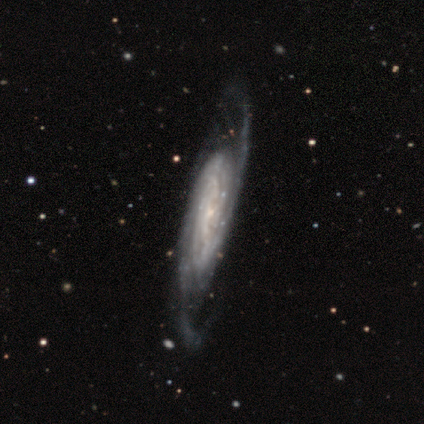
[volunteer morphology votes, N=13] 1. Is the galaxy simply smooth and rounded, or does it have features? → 92% featured or disk, 8% smooth, 0% star or artifact.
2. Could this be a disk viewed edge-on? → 75% no, 25% yes.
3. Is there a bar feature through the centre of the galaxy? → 67% no, 22% weak, 11% strong.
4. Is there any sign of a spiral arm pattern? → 100% yes, 0% no.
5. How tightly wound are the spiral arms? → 44% tight (tied), 44% medium (tied), 11% loose.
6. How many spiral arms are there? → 44% can't tell, 33% 2, 22% 3, 0% 1, 0% 4, 0% more than 4.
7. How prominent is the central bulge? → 78% small, 11% dominant, 11% none, 0% large, 0% moderate.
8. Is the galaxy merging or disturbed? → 62% none, 15% minor disturbance, 15% major disturbance, 8% merger.